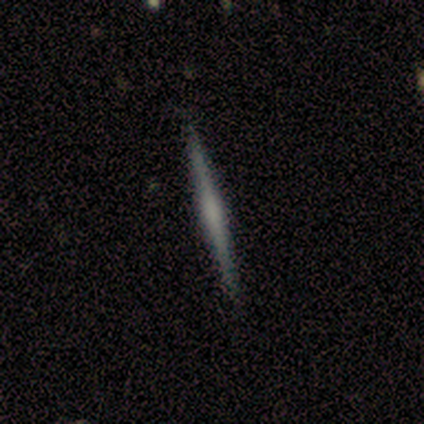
featured or disk 80%, smooth 20%, star or artifact 0%. Down the decision tree: edge-on disk — yes (100%); edge-on bulge — boxy (75%); merging — none (80%).